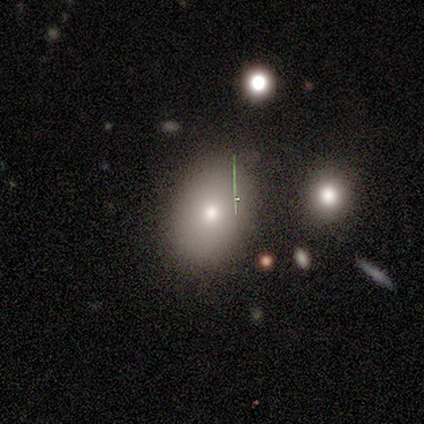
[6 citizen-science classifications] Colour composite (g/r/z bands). It shows a smooth galaxy with no disk features (67%) that is in between round and cigar-shaped (100%). Merging: none (100%).